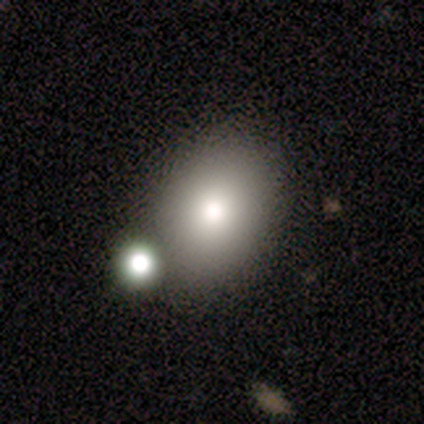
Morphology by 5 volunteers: Q: Smooth or featured?
A: smooth (80%); runner-up: featured or disk (20%)
Q: How rounded?
A: in between (75%); runner-up: round (25%)
Q: Merging?
A: none (60%); runner-up: minor disturbance (40%)